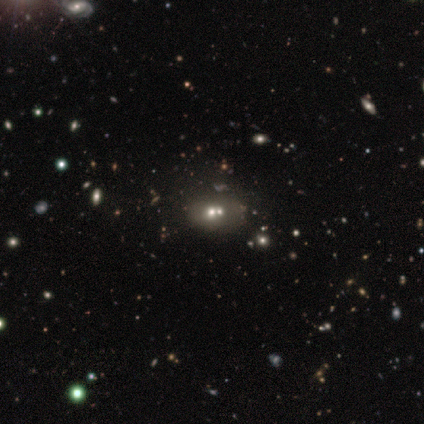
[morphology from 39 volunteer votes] A smooth galaxy with no disk features (44%) that is in between round and cigar-shaped (59%).

Vote fractions:
- Smooth or featured? smooth: 44% / featured or disk: 28% / star or artifact: 28%
- How rounded? in between: 59% / round: 35% / cigar-shaped: 6%
- Merging? merger: 71% / none: 0% / minor disturbance: 0% / major disturbance: 0%